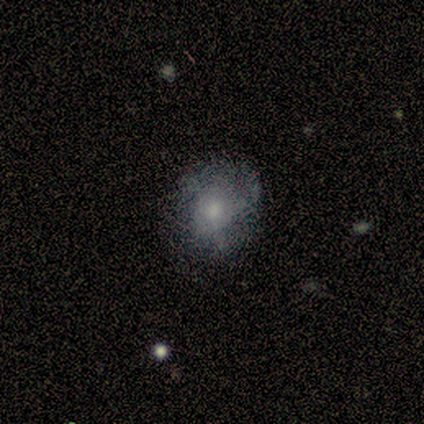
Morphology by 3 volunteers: A smooth galaxy with no disk features (67%) that is round (100%).

Vote fractions:
- Smooth or featured? smooth: 67% / featured or disk: 33% / star or artifact: 0%
- How rounded? round: 100% / in between: 0% / cigar-shaped: 0%
- Merging? none: 67% / minor disturbance: 33% / major disturbance: 0% / merger: 0%